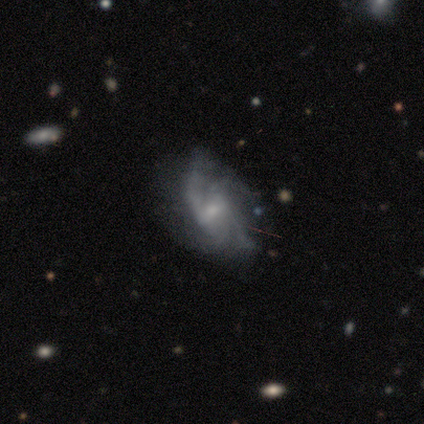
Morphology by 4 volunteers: Smooth or featured?
  - featured or disk: 100% *
  - smooth: 0%
  - star or artifact: 0%
Edge-on disk?
  - no: 100% *
  - yes: 0%
Bar?
  - weak: 75% *
  - no: 25%
  - strong: 0%
Spiral arms?
  - yes: 75% *
  - no: 25%
Spiral winding?
  - tight: 33% * (tied)
  - medium: 33% * (tied)
  - loose: 33% * (tied)
Spiral arm count?
  - 4: 67% *
  - 3: 33%
  - 1: 0%
  - 2: 0%
  - more than 4: 0%
  - can't tell: 0%
Bulge size?
  - moderate: 50% * (tied)
  - small: 50% * (tied)
  - dominant: 0%
  - large: 0%
  - none: 0%
Merging?
  - none: 75% *
  - minor disturbance: 25%
  - major disturbance: 0%
  - merger: 0%